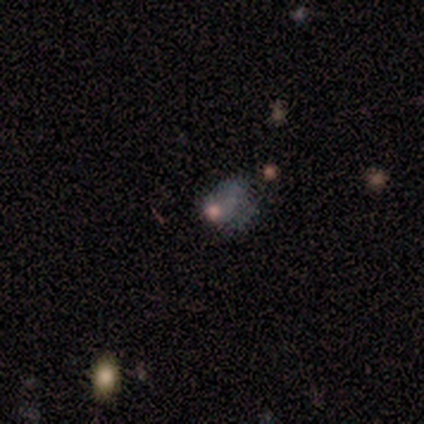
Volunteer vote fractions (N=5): Smooth or featured?
  - smooth: 60% *
  - featured or disk: 20%
  - star or artifact: 20%
How rounded?
  - in between: 67% *
  - round: 33%
  - cigar-shaped: 0%
Merging?
  - major disturbance: 100% *
  - none: 0%
  - minor disturbance: 0%
  - merger: 0%